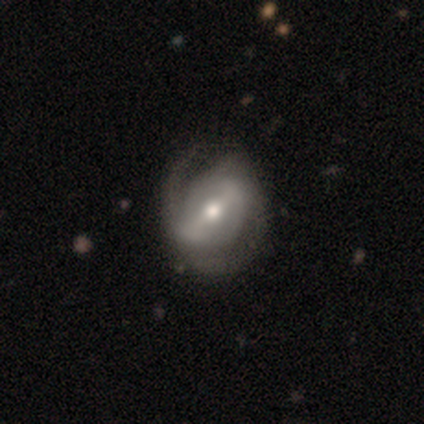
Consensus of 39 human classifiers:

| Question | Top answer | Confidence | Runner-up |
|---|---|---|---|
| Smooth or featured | featured or disk | 97% | smooth (3%) |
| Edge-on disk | no | 97% | yes (3%) |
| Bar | strong | 59% | weak (30%) |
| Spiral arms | yes | 92% | no (8%) |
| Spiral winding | medium | 59% | tight (21%) |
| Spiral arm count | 2 | 62% | can't tell (21%) |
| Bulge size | moderate | 59% | small (22%) |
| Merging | none | 46% | minor disturbance (10%) |